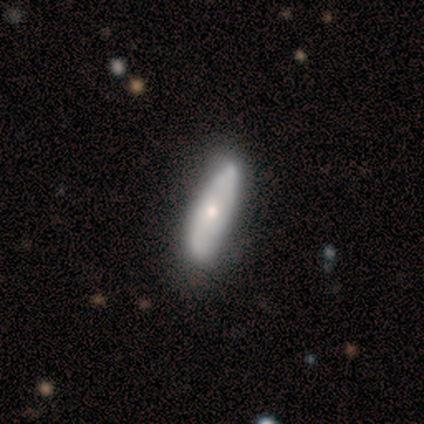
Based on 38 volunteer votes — smooth 55%, featured or disk 37%, star or artifact 8%. Down the decision tree: how rounded — cigar-shaped (62%); merging — none (71%).